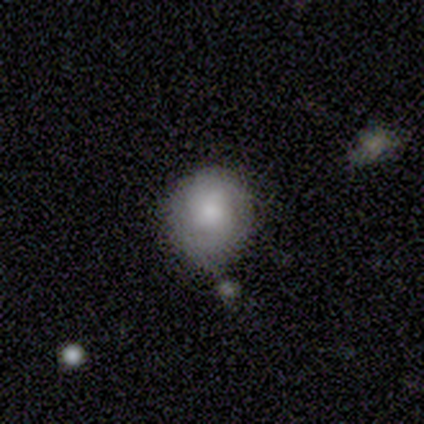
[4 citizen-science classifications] Smooth or featured? smooth (75%)
How rounded? round (100%)
Merging? none (75%)